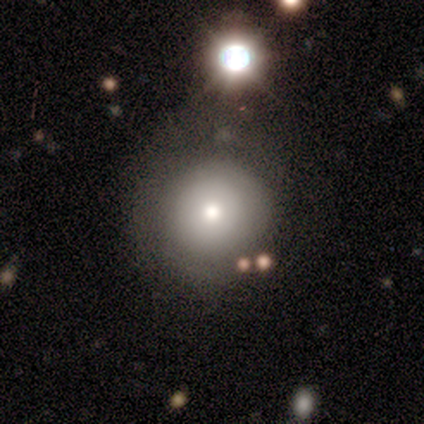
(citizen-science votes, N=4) Smooth or featured? 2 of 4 (50%) said smooth. How rounded? 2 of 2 (100%) said round. Merging? 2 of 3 (67%) said none.